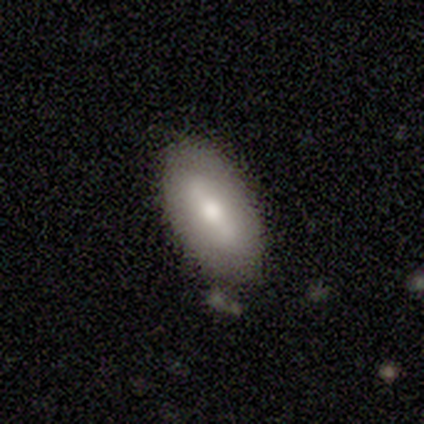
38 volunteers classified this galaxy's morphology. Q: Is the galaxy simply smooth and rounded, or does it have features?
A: smooth — 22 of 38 (58%).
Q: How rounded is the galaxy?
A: in between — 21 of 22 (95%).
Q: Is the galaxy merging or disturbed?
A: none — 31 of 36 (86%).